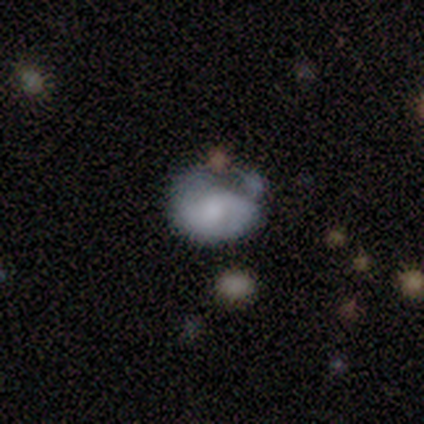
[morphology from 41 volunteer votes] A smooth galaxy with no disk features (61%) that is in between round and cigar-shaped (68%). Merging: minor disturbance (41%).